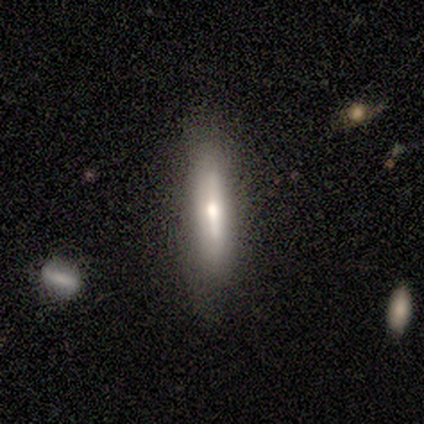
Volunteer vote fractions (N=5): Smooth or featured? 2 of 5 (40%, tied with featured or disk) said smooth. How rounded? 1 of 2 (50%, tied with cigar-shaped) said in between. Merging? 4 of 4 (100%) said none.